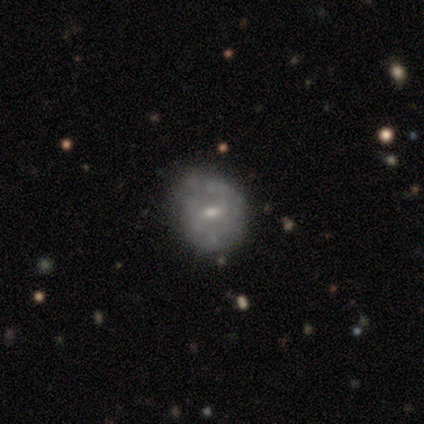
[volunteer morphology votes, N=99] smooth-or-featured: featured or disk: 58% | smooth: 39% | star or artifact: 3%
  disk-edge-on: no: 100% | yes: 0%
    bar: weak: 61% | no: 37% | strong: 2%
    has-spiral-arms: no: 60% | yes: 40%
    bulge-size: small: 72% | moderate: 23% | none: 4% | dominant: 2% | large: 0%
  merging: none: 62% | minor disturbance: 35% | major disturbance: 2% | merger: 0%